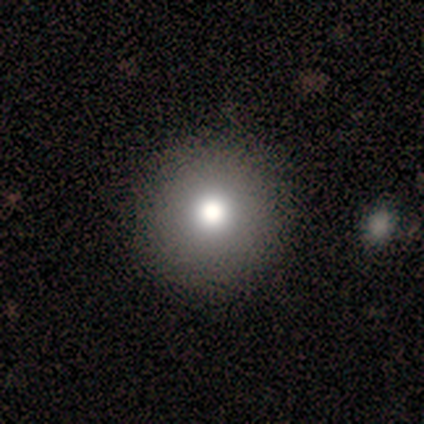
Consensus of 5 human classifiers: Q: Smooth or featured?
A: smooth (60%); runner-up: featured or disk (20%)
Q: How rounded?
A: round (100%)
Q: Merging?
A: none (75%); runner-up: major disturbance (25%)